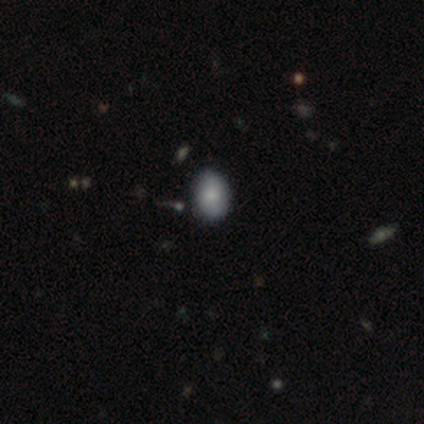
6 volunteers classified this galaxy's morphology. A smooth galaxy with no disk features (83%) that is in between round and cigar-shaped (80%).

Vote fractions:
- Smooth or featured? smooth: 83% / featured or disk: 17% / star or artifact: 0%
- How rounded? in between: 80% / round: 20% / cigar-shaped: 0%
- Merging? none: 83% / major disturbance: 17% / minor disturbance: 0% / merger: 0%